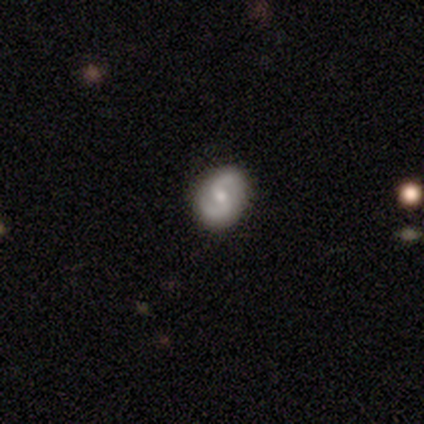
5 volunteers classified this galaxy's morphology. A featured or disk galaxy (80%) with no bar (50%), 2 (100%) medium (50%, tied with loose) spiral arms (100%) and a small central bulge (75%). Merging: none (100%).